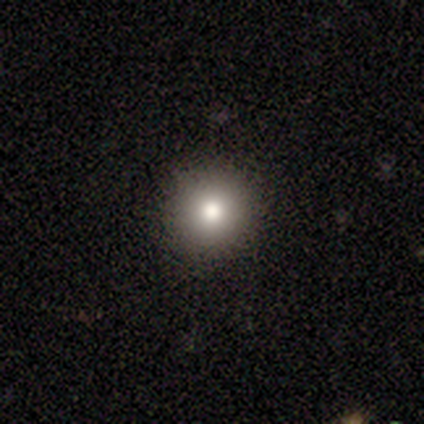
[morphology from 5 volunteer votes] A smooth galaxy with no disk features (80%) that is round (75%). Merging: none (100%).